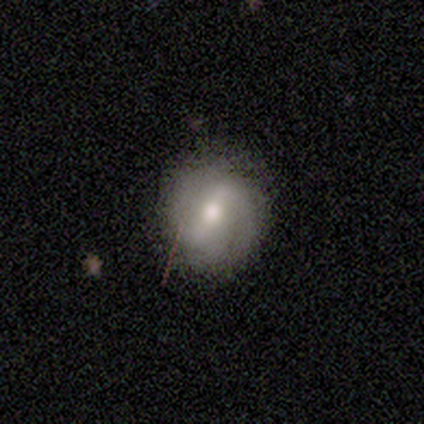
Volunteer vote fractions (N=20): Morphology: type=featured or disk (60%); edge-on=no (100%); bar=strong (50%); spiral arms=yes (75%); winding=medium (44%); arm count=2 (78%); bulge=moderate (83%); merging=none (85%).